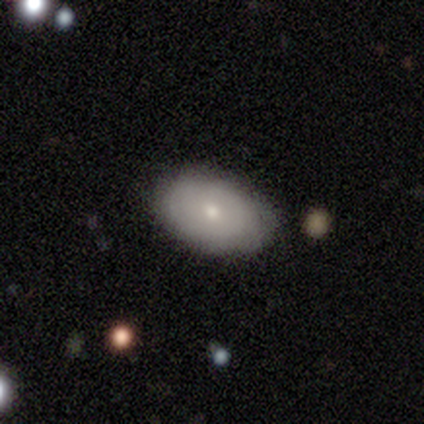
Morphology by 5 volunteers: smooth_or_featured: featured or disk (p=0.80) [alt: smooth p=0.20]
disk_edge_on: no (p=1.00)
bar: no (p=1.00)
has_spiral_arms: no (p=0.75) [alt: yes p=0.25]
bulge_size: moderate (p=0.50) [tied with: small p=0.50]
merging: none (p=0.60) [alt: merger p=0.40]